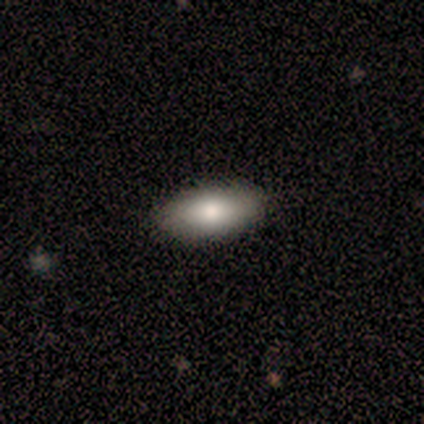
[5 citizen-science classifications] smooth-or-featured: smooth: 80% | star or artifact: 20% | featured or disk: 0%
  how-rounded: in between: 100% | round: 0% | cigar-shaped: 0%
  merging: none: 100% | minor disturbance: 0% | major disturbance: 0% | merger: 0%